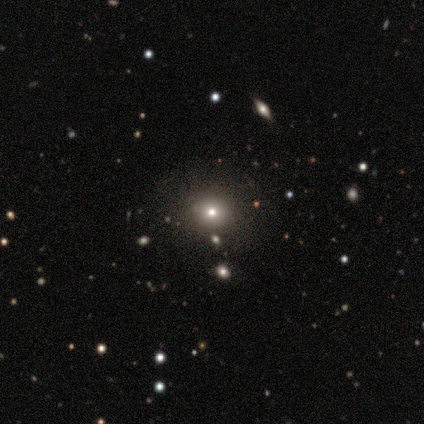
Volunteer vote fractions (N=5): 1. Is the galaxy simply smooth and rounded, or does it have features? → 60% smooth, 40% featured or disk, 0% star or artifact.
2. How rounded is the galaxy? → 67% round, 33% in between, 0% cigar-shaped.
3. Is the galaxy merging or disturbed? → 100% none, 0% minor disturbance, 0% major disturbance, 0% merger.